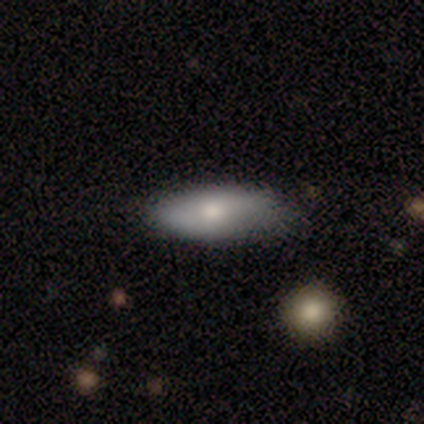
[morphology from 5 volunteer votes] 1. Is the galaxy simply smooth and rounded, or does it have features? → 60% smooth, 40% featured or disk, 0% star or artifact.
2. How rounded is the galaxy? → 67% in between, 33% cigar-shaped, 0% round.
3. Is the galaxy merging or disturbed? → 100% none, 0% minor disturbance, 0% major disturbance, 0% merger.